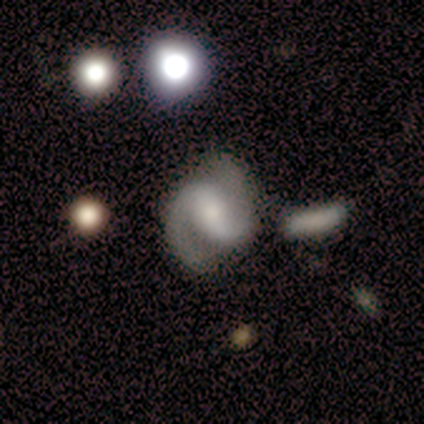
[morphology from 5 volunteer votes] Smooth or featured? 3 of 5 (60%) said featured or disk. Edge-on disk? 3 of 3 (100%) said no. Bar? 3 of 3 (100%) said weak. Spiral arms? 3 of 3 (100%) said yes. Spiral winding? 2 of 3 (67%) said loose. Spiral arm count? 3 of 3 (100%) said 2. Bulge size? 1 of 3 (33%, tied with small and none) said moderate. Merging? 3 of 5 (60%) said none.